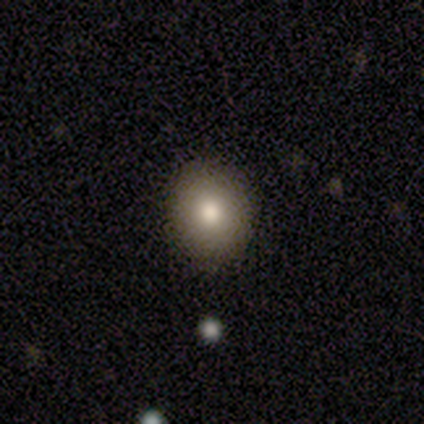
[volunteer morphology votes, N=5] Smooth or featured: smooth — 100%
How rounded: round — 60% (in between — 40%)
Merging: none — 100%